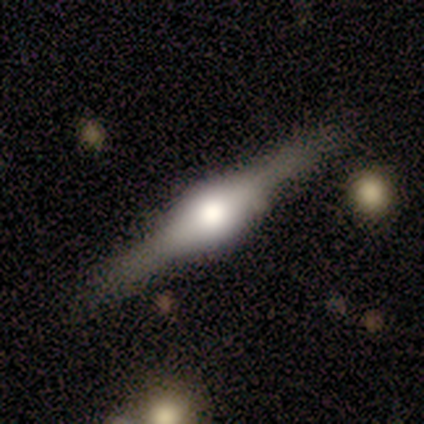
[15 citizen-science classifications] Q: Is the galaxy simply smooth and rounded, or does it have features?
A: featured or disk — 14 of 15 (93%).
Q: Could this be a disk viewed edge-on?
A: yes — 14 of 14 (100%).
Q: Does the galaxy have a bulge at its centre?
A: rounded — 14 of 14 (100%).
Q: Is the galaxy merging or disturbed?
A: none — 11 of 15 (73%).